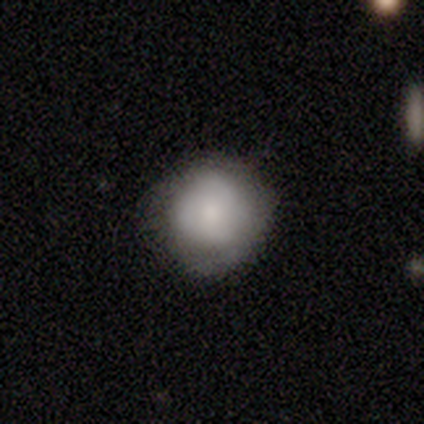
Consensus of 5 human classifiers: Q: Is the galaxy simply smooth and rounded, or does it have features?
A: smooth — 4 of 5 (80%).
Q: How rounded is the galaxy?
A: round — 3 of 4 (75%).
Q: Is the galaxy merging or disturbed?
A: none — 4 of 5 (80%).